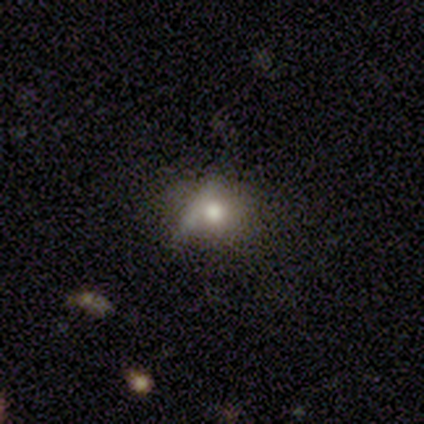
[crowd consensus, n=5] Overall: star or artifact (80%).